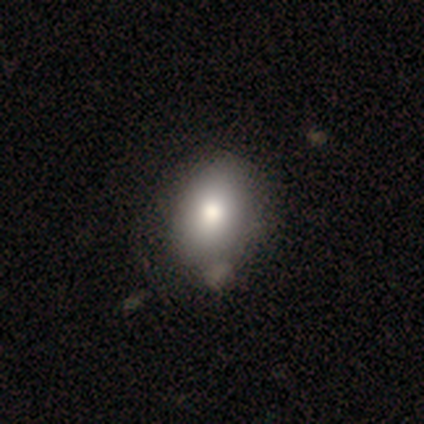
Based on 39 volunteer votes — Overall: smooth (82%). How rounded: in between (75%). Merging: none (55%).